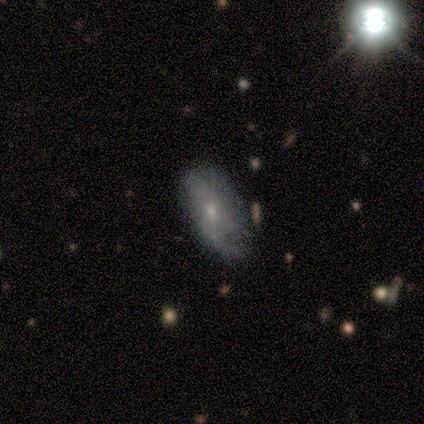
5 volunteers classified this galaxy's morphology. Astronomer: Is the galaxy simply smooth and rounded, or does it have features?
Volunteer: smooth — 60%.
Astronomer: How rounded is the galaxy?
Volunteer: in between — 100%.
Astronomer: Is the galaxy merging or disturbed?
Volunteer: none — 100%.